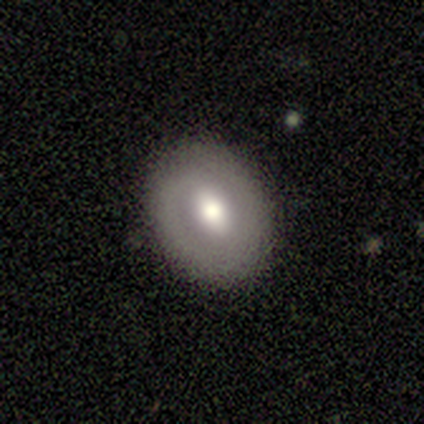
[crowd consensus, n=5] Volunteers were most divided on "bar" (3-way tie): strong: 33%, weak: 33%, no: 33%. More confident: edge-on disk — no (100%); bulge size — moderate (100%); merging — none (100%); spiral arms — no (67%); smooth or featured — featured or disk (60%).